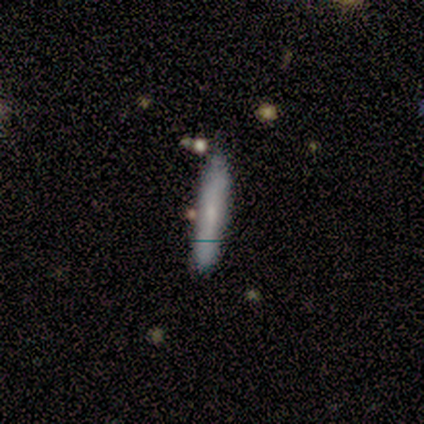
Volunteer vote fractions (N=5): Smooth or featured? 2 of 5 (40%, tied with featured or disk) said smooth. How rounded? 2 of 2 (100%) said cigar-shaped. Merging? 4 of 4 (100%) said none.